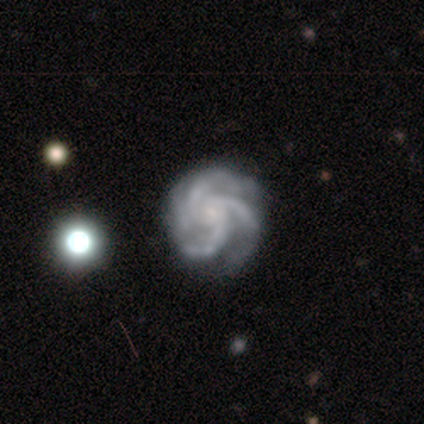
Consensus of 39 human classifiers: smooth_or_featured: featured or disk (p=1.00)
disk_edge_on: no (p=0.97) [alt: yes p=0.03]
bar: no (p=0.68) [alt: weak p=0.29]
has_spiral_arms: yes (p=1.00)
spiral_winding: tight (p=0.50) [alt: medium p=0.37]
spiral_arm_count: 3 (p=0.89) [alt: 4 p=0.08]
bulge_size: small (p=0.53) [alt: none p=0.32]
merging: none (p=0.51) [alt: minor disturbance p=0.13]